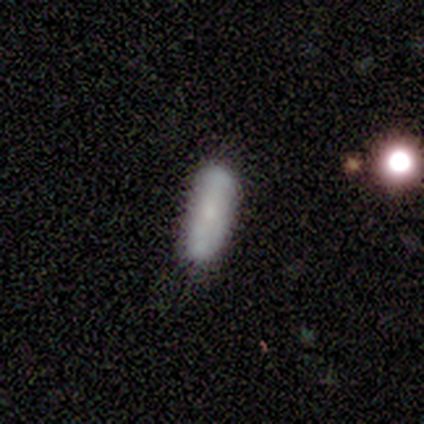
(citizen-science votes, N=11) Smooth or featured?
  - smooth: 64% *
  - featured or disk: 18%
  - star or artifact: 18%
How rounded?
  - in between: 57% *
  - cigar-shaped: 43%
  - round: 0%
Merging?
  - none: 78% *
  - minor disturbance: 22%
  - major disturbance: 0%
  - merger: 0%